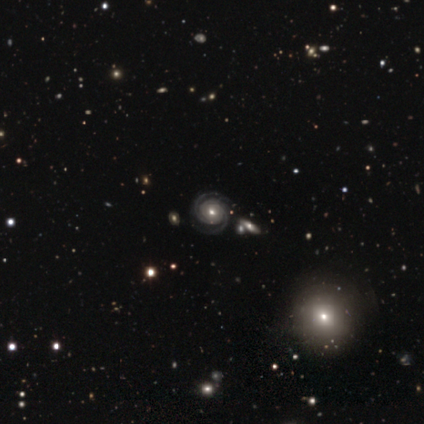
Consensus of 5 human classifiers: This is clearly a featured or disk galaxy (100%). It is clearly not viewed edge-on (100%). Bar: clearly no (80%). Spiral arm pattern: clearly yes (100%). Spiral arm count: likely 2 (60%). Spiral winding: clearly tight (100%). Central bulge: marginally moderate (40%, tied with small). Merging: clearly none (80%).